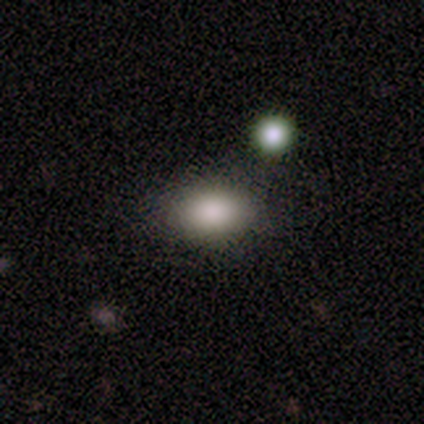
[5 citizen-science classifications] A smooth galaxy with no disk features (80%) that is in between round and cigar-shaped (100%). Merging: none (100%).